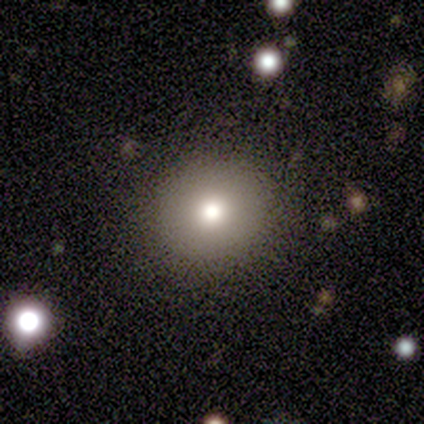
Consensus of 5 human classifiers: Smooth or featured?
  - smooth: 80% *
  - featured or disk: 20%
  - star or artifact: 0%
How rounded?
  - round: 75% *
  - cigar-shaped: 25%
  - in between: 0%
Merging?
  - none: 100% *
  - minor disturbance: 0%
  - major disturbance: 0%
  - merger: 0%